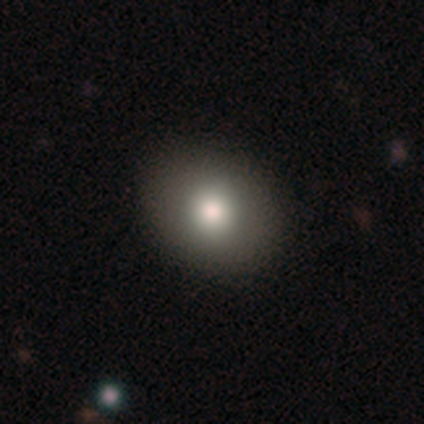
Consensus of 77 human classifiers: Smooth or featured? 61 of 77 (79%) said smooth. How rounded? 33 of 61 (54%) said round. Merging? 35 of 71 (49%) said none.